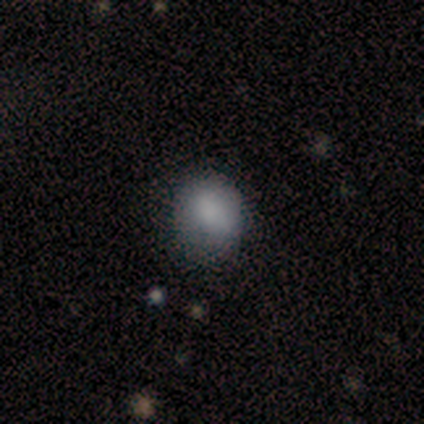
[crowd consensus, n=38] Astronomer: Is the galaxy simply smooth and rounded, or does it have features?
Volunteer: smooth — 79%.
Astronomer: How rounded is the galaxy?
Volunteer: round — 70%.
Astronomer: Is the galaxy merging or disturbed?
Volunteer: none — 68%.